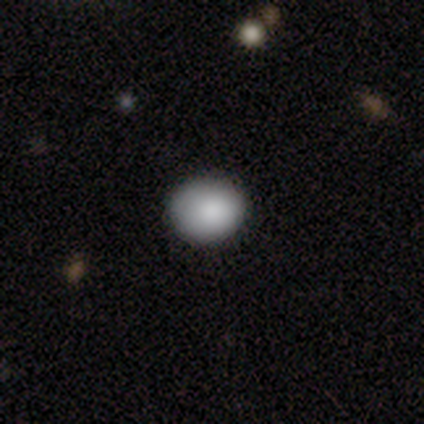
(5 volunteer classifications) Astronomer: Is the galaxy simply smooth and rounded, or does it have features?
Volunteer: smooth — 80%.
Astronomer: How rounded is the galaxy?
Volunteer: round — 75%.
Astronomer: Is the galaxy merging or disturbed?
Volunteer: none — 75%.